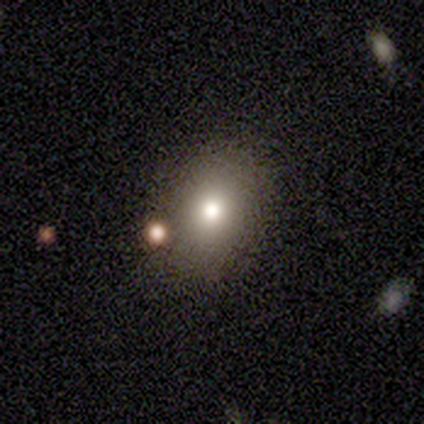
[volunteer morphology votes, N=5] Overall: smooth (80%). How rounded: round (50%, tied with in between). Merging: none (100%).